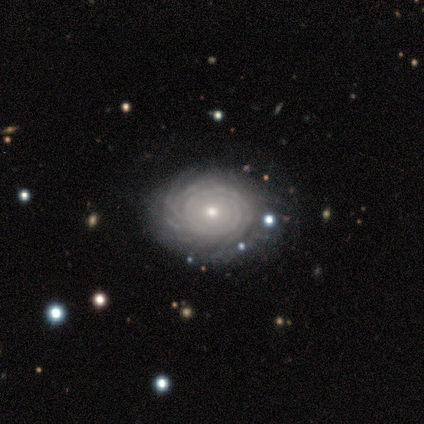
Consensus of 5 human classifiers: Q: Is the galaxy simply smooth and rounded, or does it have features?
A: featured or disk — 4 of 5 (80%).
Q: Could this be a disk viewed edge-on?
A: no — 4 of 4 (100%).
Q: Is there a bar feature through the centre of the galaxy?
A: no — 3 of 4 (75%).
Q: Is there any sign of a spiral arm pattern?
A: yes — 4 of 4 (100%).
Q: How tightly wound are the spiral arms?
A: tight — 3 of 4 (75%).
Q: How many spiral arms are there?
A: can't tell — 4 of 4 (100%).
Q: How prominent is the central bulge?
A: moderate — 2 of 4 (50%, tied with small).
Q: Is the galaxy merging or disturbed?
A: none — 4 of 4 (100%).